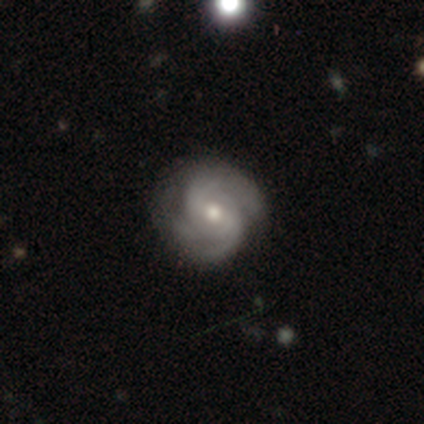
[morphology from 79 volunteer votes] Overall: featured or disk (92%). Edge-on disk: no (99%). Bar: no (57%; weak 40%). Spiral arms: yes (100%). Spiral arm count: 2 (36%; 3 28%). Spiral winding: tight (46%, tied with medium). Bulge size: moderate (68%; small 31%). Merging: none (55%).